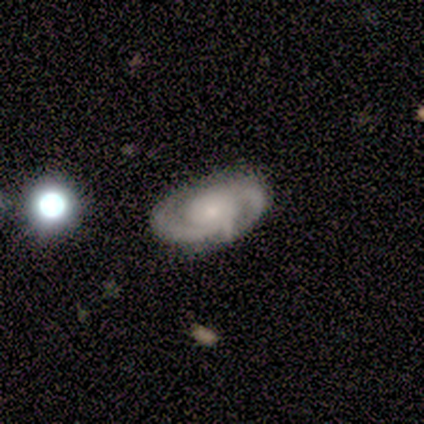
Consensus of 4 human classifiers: A featured or disk galaxy (100%) with no bar (75%), 2 (75%) medium (100%) spiral arms (100%) and a small central bulge (75%). Merging: none (100%).